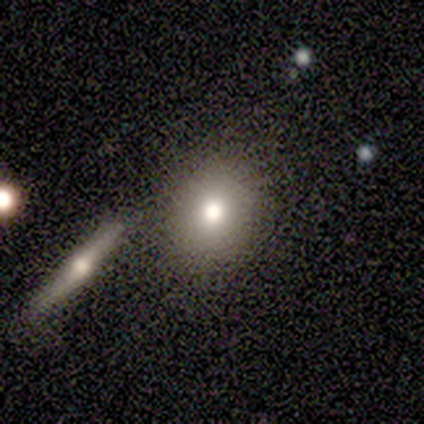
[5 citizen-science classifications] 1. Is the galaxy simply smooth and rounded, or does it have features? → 60% smooth, 20% featured or disk, 20% star or artifact.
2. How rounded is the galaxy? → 100% round, 0% in between, 0% cigar-shaped.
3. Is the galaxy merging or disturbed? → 75% none, 25% minor disturbance, 0% major disturbance, 0% merger.